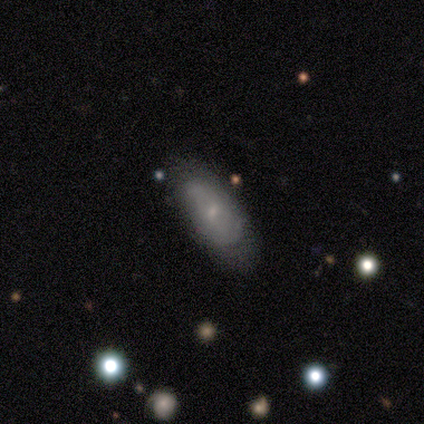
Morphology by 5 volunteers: This is likely a smooth galaxy (60%). How rounded: likely in between (67%). Merging: marginally none (40%, tied with minor disturbance).